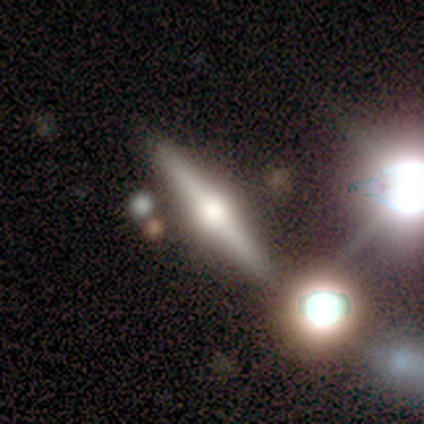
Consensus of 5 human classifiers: This is clearly a featured or disk galaxy (100%). It is clearly viewed edge-on (100%). Edge-on bulge: clearly rounded (100%). Merging: clearly none (80%).